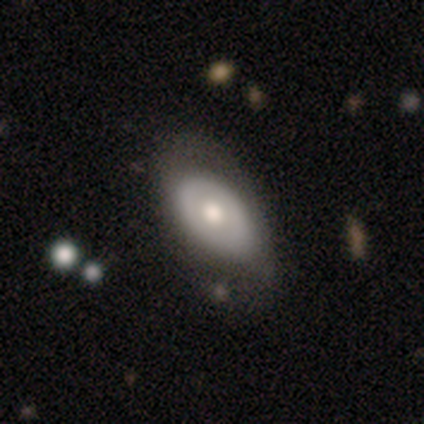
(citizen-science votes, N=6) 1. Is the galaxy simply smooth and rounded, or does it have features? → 83% featured or disk, 17% smooth, 0% star or artifact.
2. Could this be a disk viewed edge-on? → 100% no, 0% yes.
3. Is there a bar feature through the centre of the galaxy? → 80% no, 20% weak, 0% strong.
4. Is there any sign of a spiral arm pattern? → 80% no, 20% yes.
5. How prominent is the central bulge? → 60% moderate, 20% large, 20% small, 0% dominant, 0% none.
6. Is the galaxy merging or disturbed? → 50% none (tied), 50% minor disturbance (tied), 0% major disturbance, 0% merger.